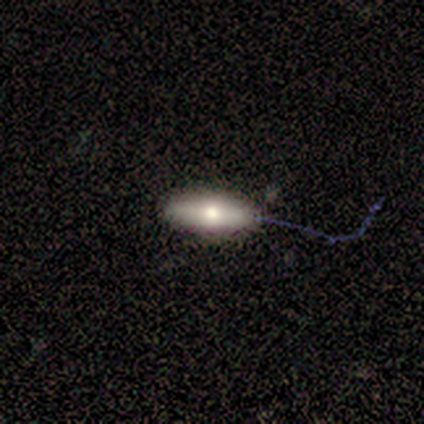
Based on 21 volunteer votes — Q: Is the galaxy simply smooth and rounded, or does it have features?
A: smooth — 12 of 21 (57%).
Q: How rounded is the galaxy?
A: in between — 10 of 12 (83%).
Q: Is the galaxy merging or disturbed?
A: none — 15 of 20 (75%).